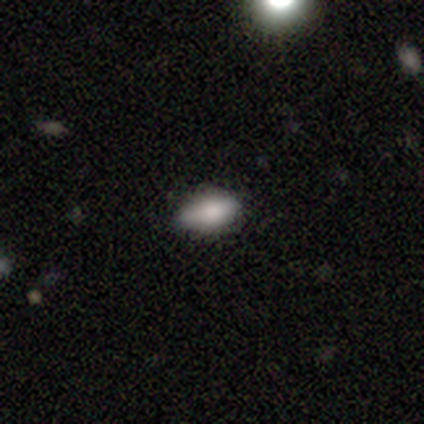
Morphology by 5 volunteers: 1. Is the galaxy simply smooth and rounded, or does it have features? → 60% smooth, 20% featured or disk, 20% star or artifact.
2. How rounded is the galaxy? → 100% in between, 0% round, 0% cigar-shaped.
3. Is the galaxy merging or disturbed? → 50% none (tied), 50% minor disturbance (tied), 0% major disturbance, 0% merger.